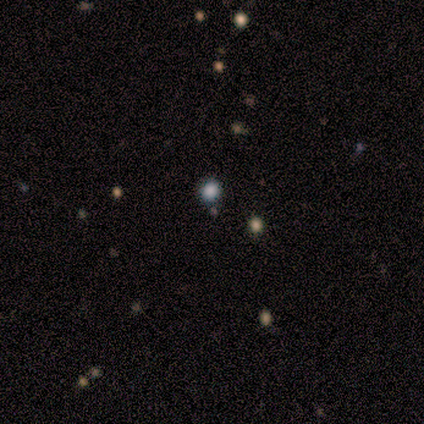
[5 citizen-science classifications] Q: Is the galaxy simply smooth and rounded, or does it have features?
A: smooth — 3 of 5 (60%).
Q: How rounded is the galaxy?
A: round — 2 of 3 (67%).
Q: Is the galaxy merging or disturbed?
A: none — 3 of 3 (100%).